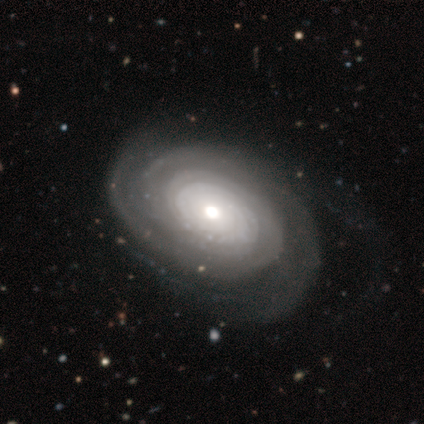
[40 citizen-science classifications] Smooth or featured? 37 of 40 (92%) said featured or disk. Edge-on disk? 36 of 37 (97%) said no. Bar? 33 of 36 (92%) said no. Spiral arms? 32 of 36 (89%) said yes. Spiral winding? 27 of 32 (84%) said tight. Spiral arm count? 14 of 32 (44%) said can't tell. Bulge size? 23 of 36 (64%) said moderate. Merging? 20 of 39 (51%) said none.